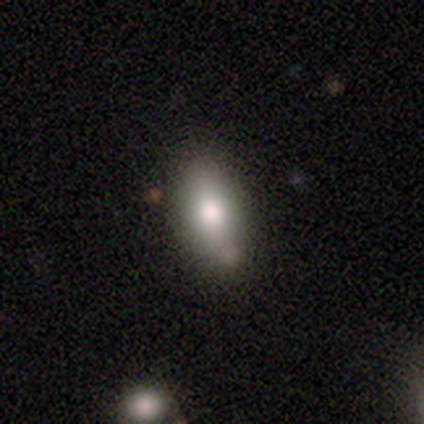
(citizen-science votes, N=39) Smooth or featured?
  - smooth: 77% *
  - featured or disk: 21%
  - star or artifact: 3%
How rounded?
  - in between: 90% *
  - cigar-shaped: 10%
  - round: 0%
Merging?
  - none: 45% *
  - minor disturbance: 13%
  - merger: 8%
  - major disturbance: 3%